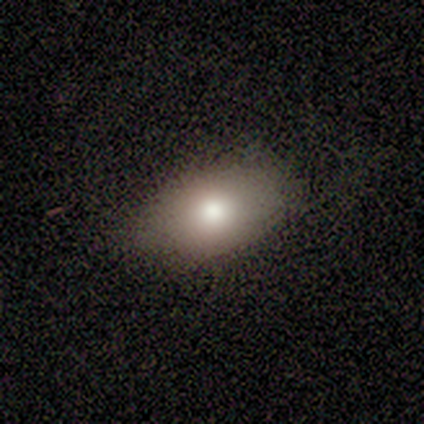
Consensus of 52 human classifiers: smooth-or-featured: smooth: 81% | featured or disk: 13% | star or artifact: 6%
  how-rounded: in between: 86% | round: 14% | cigar-shaped: 0%
  merging: none: 71% | minor disturbance: 24% | major disturbance: 4% | merger: 0%